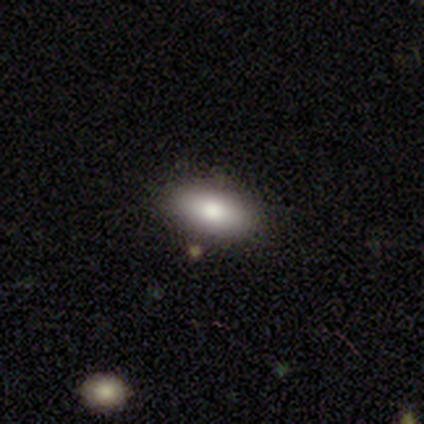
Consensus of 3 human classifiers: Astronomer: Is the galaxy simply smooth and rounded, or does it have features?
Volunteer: smooth — 100%.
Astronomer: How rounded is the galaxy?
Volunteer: in between — 100%.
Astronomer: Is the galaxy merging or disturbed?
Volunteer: none — 100%.